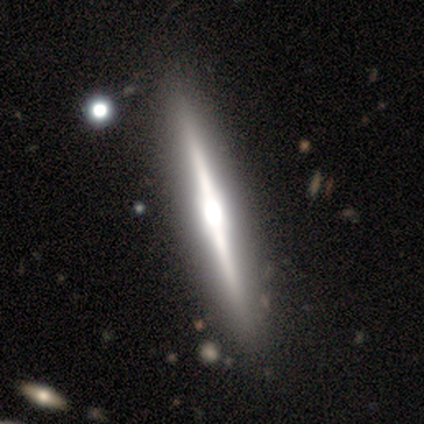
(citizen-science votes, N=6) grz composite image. It shows a featured or disk galaxy (100%) viewed edge-on (100%) with a boxy central bulge (50%, tied with rounded). Merging: none (100%).